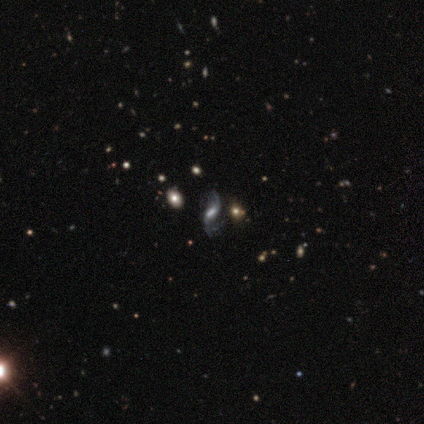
Smooth or featured? 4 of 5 (80%) said featured or disk. Edge-on disk? 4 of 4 (100%) said no. Bar? 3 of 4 (75%) said weak. Spiral arms? 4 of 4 (100%) said yes. Spiral winding? 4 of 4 (100%) said loose. Spiral arm count? 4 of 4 (100%) said 2. Bulge size? 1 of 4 (25%, tied with large, small and none) said dominant. Merging? 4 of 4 (100%) said none.